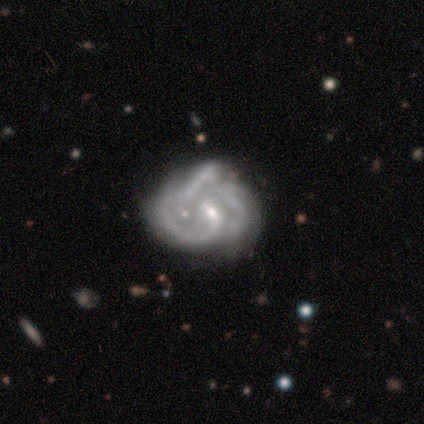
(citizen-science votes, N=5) smooth-or-featured: featured or disk: 100% | smooth: 0% | star or artifact: 0%
  disk-edge-on: no: 100% | yes: 0%
    bar: weak: 60% | no: 40% | strong: 0%
    has-spiral-arms: yes: 100% | no: 0%
      spiral-winding: medium: 60% | tight: 20% | loose: 20%
      spiral-arm-count: 1: 40% | 2: 20% | 3: 20% | can't tell: 20% | 4: 0% | more than 4: 0%
    bulge-size: small: 100% | dominant: 0% | large: 0% | moderate: 0% | none: 0%
  merging: none: 40% (tied) | minor disturbance: 40% (tied) | major disturbance: 20% | merger: 0%